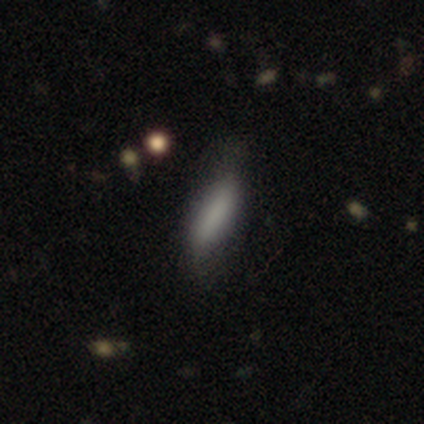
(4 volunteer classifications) This is likely a smooth galaxy (75%). How rounded: likely cigar-shaped (67%). Merging: clearly none (100%).